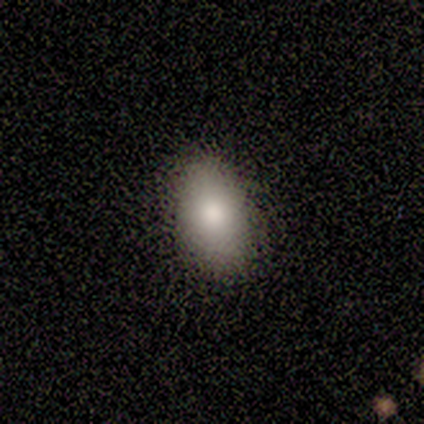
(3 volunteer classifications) Overall: smooth (100%). How rounded: in between (100%). Merging: none (100%).